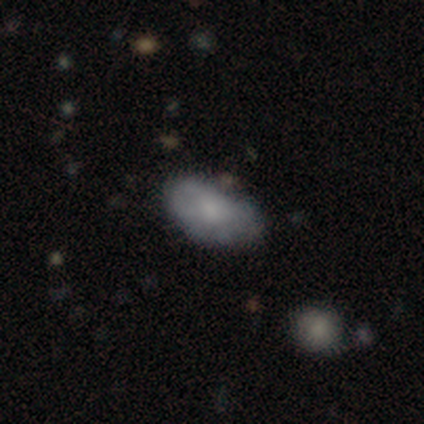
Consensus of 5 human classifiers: Smooth or featured? 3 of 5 (60%) said smooth. How rounded? 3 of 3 (100%) said in between. Merging? 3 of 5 (60%) said none.